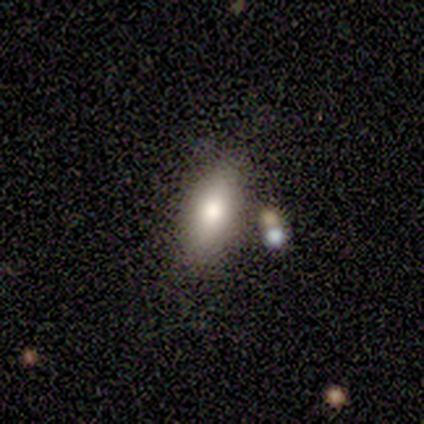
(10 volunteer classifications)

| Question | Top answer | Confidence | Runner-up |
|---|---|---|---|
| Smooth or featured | smooth | 80% | featured or disk (20%) |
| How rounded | in between | 75% | round (12%) |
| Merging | none | 80% | minor disturbance (20%) |